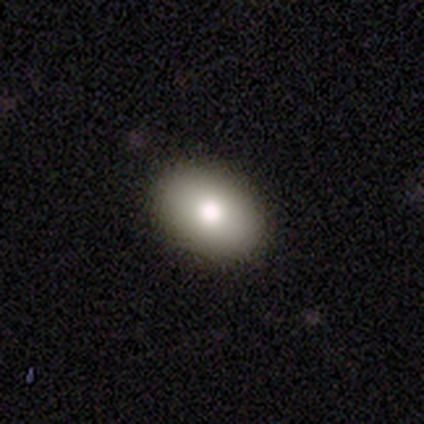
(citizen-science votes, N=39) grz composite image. It shows a smooth galaxy with no disk features (90%) that is in between round and cigar-shaped (89%). Merging: none (85%).